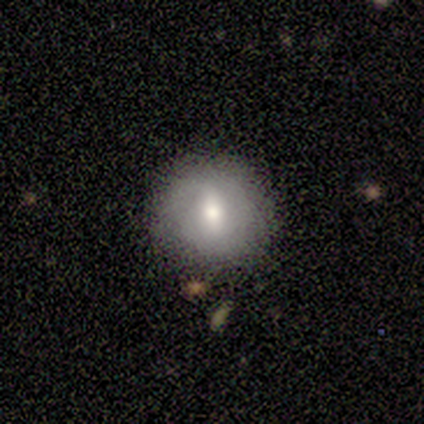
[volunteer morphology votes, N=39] A featured or disk galaxy (51%) with a weak bar (68%), no spiral arms (58%) and a moderate central bulge (74%).

Vote fractions:
- Smooth or featured? featured or disk: 51% / smooth: 36% / star or artifact: 13%
- Edge-on disk? no: 95% / yes: 5%
- Bar? weak: 68% / strong: 16% / no: 16%
- Spiral arms? no: 58% / yes: 42%
- Bulge size? moderate: 74% / small: 16% / large: 11% / dominant: 0% / none: 0%
- Merging? none: 74% / minor disturbance: 24% / major disturbance: 3% / merger: 0%